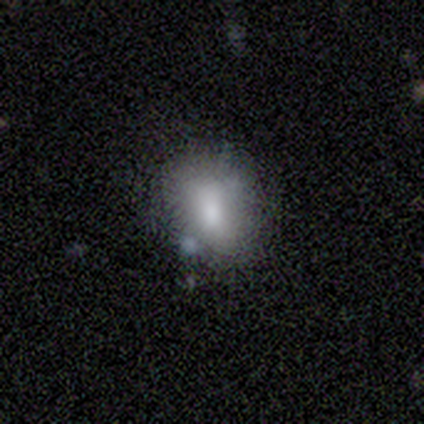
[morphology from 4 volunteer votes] smooth_or_featured: smooth (p=0.75) [alt: featured or disk p=0.25]
how_rounded: in between (p=1.00)
merging: none (p=1.00)